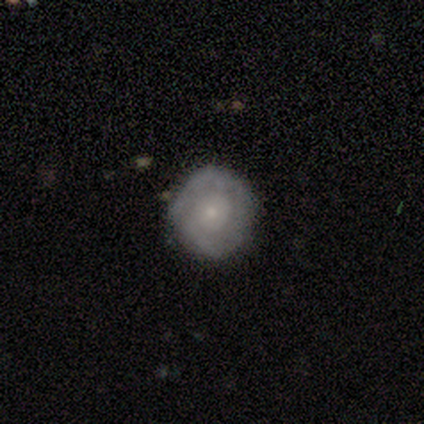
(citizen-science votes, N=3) Q: Smooth or featured?
A: smooth (67%); runner-up: featured or disk (33%)
Q: How rounded?
A: round (100%)
Q: Merging?
A: none (100%)